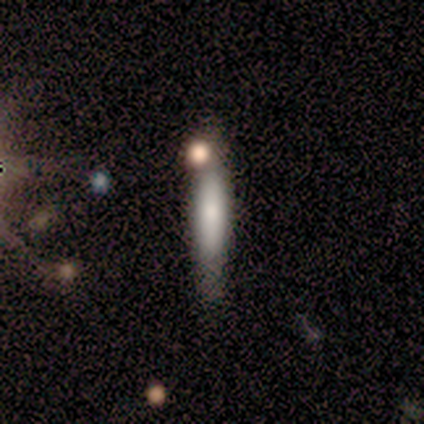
Q: Smooth or featured?
A: smooth (80%); runner-up: star or artifact (20%)
Q: How rounded?
A: cigar-shaped (100%)
Q: Merging?
A: none (100%)